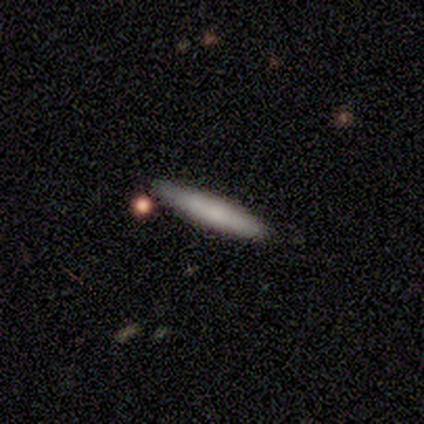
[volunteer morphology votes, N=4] type=smooth (100%); roundness=cigar-shaped (100%); merging=none (75%).